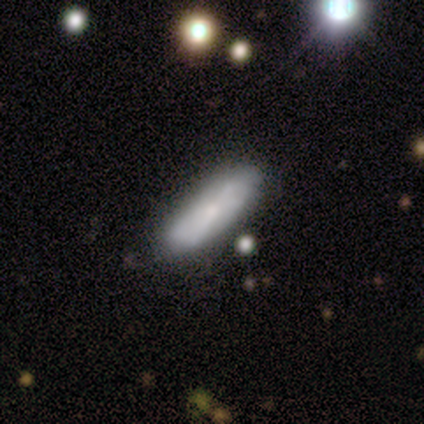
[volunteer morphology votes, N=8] A smooth galaxy with no disk features (50%) that is in between round and cigar-shaped (75%).

Vote fractions:
- Smooth or featured? smooth: 50% / featured or disk: 38% / star or artifact: 12%
- How rounded? in between: 75% / cigar-shaped: 25% / round: 0%
- Merging? none: 71% / minor disturbance: 29% / major disturbance: 0% / merger: 0%